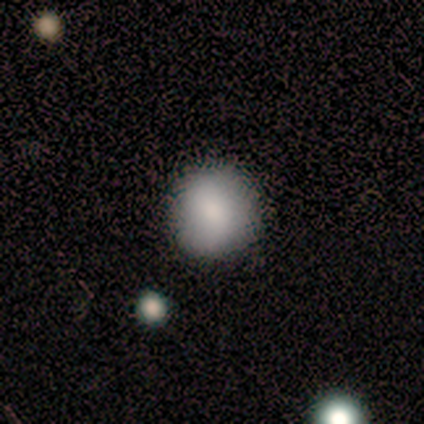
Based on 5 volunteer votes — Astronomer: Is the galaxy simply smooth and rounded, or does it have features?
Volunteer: smooth — 100%.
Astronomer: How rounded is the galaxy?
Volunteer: round — 100%.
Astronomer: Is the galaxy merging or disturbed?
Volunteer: none — 100%.